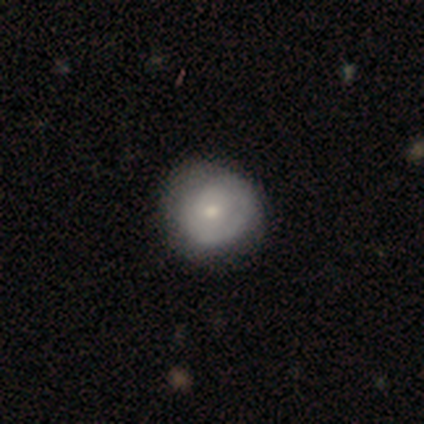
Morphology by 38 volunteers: This appears to be a featured or disk galaxy (50%) with no bar (84%), tight (75%) spiral arms (63%) and a moderate central bulge (47%, tied with small). Merging: none (65%).